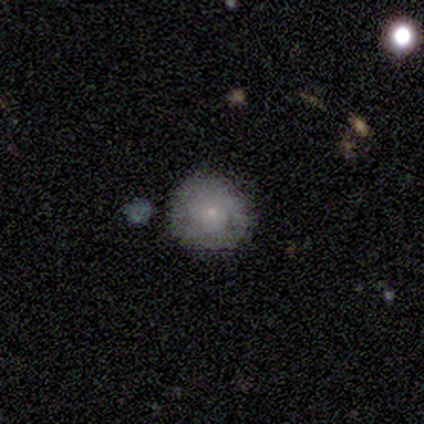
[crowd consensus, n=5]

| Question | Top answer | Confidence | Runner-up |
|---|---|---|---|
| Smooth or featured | smooth | 100% | — |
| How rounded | round | 100% | — |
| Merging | none | 100% | — |